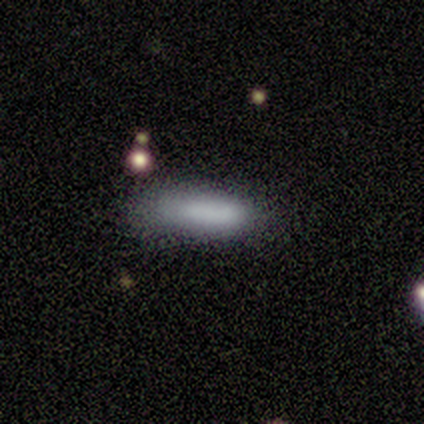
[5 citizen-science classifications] This is clearly a smooth galaxy (100%). How rounded: clearly in between (80%). Merging: likely none (60%).